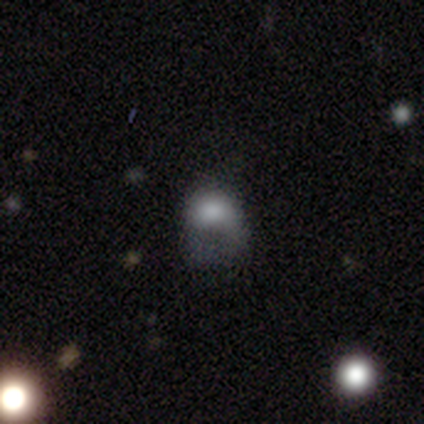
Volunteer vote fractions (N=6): A smooth galaxy with no disk features (83%) that is round (60%). Merging: major disturbance (80%).